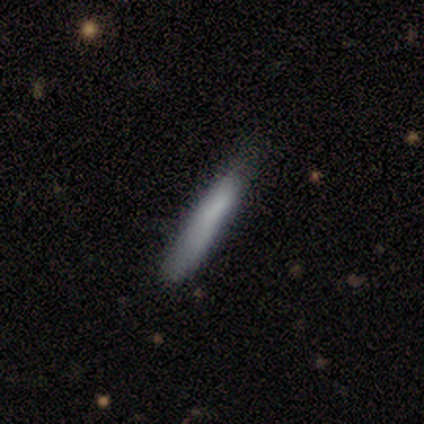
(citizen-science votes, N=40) smooth_or_featured: smooth (p=0.82) [alt: featured or disk p=0.15]
how_rounded: cigar-shaped (p=0.88) [alt: in between p=0.12]
merging: none (p=0.54) [alt: minor disturbance p=0.18]